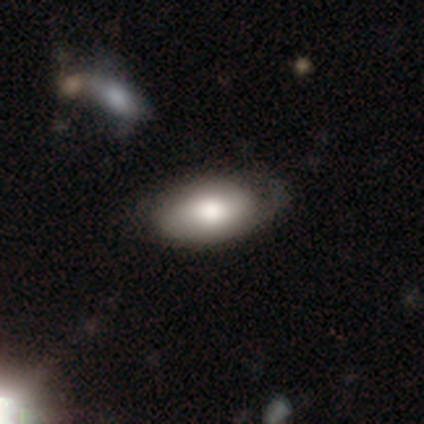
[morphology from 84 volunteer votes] This appears to be a smooth galaxy with no disk features (77%) that is in between round and cigar-shaped (98%). Merging: none (57%).